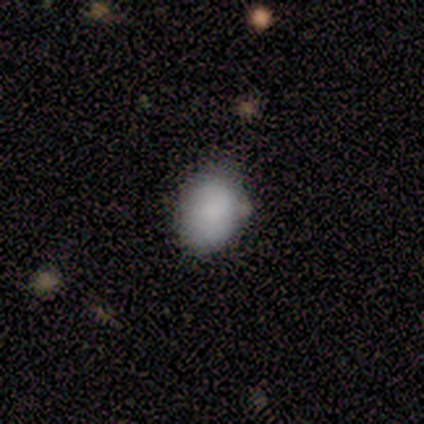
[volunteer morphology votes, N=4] smooth_or_featured: smooth (p=0.75) [alt: star or artifact p=0.25]
how_rounded: in between (p=0.67) [alt: round p=0.33]
merging: none (p=0.67) [alt: minor disturbance p=0.33]